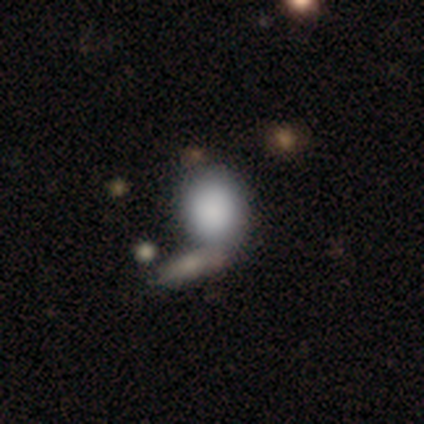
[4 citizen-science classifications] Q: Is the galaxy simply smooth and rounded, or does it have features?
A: smooth — 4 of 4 (100%).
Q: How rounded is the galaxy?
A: round — 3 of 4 (75%).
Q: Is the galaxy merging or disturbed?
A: none — 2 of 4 (50%, tied with merger).